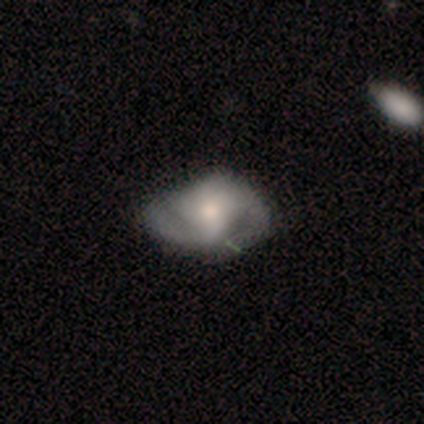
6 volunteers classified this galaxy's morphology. smooth-or-featured: featured or disk: 83% | smooth: 17% | star or artifact: 0%
  disk-edge-on: no: 100% | yes: 0%
    bar: no: 80% | strong: 20% | weak: 0%
    has-spiral-arms: yes: 80% | no: 20%
      spiral-winding: tight: 50% (tied) | medium: 50% (tied) | loose: 0%
      spiral-arm-count: 2: 75% | 1: 25% | 3: 0% | 4: 0% | more than 4: 0% | can't tell: 0%
    bulge-size: moderate: 60% | small: 20% | none: 20% | dominant: 0% | large: 0%
  merging: none: 33% (tied) | minor disturbance: 33% (tied) | major disturbance: 33% (tied) | merger: 0%